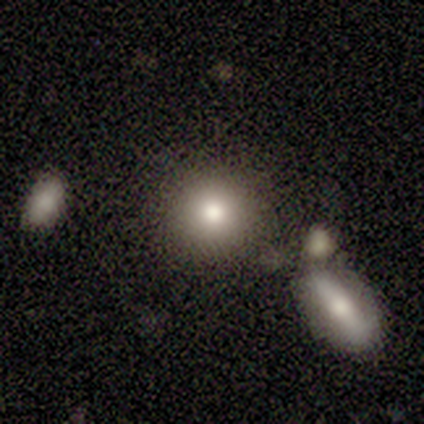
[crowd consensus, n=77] Smooth or featured?
  - smooth: 78% *
  - featured or disk: 14%
  - star or artifact: 8%
How rounded?
  - round: 87% *
  - in between: 13%
  - cigar-shaped: 0%
Merging?
  - none: 66% *
  - minor disturbance: 15%
  - merger: 15%
  - major disturbance: 3%